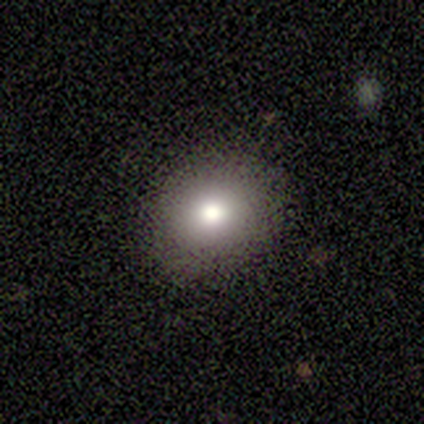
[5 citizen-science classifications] Smooth or featured: smooth — 80% (star or artifact — 20%)
How rounded: round — 75% (in between — 25%)
Merging: none — 100%